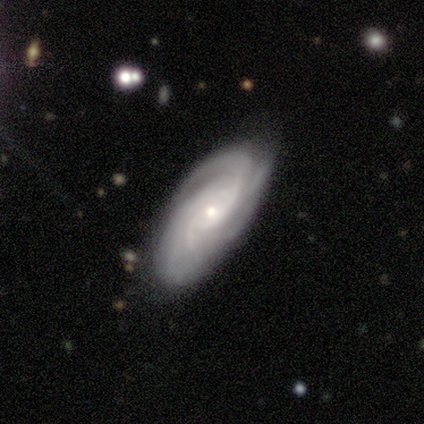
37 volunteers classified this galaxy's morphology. Smooth or featured? featured or disk (95%)
Edge-on disk? no (94%)
Bar? no (73%)
Spiral arms? yes (97%)
Spiral winding? tight (59%)
Spiral arm count? 3 (25%, tied with more than 4 and can't tell)
Bulge size? small (70%)
Merging? none (75%)